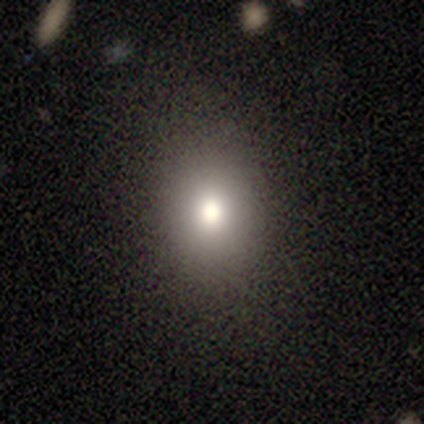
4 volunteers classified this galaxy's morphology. A smooth galaxy with no disk features (100%) that is in between round and cigar-shaped (100%).

Vote fractions:
- Smooth or featured? smooth: 100% / featured or disk: 0% / star or artifact: 0%
- How rounded? in between: 100% / round: 0% / cigar-shaped: 0%
- Merging? none: 100% / minor disturbance: 0% / major disturbance: 0% / merger: 0%